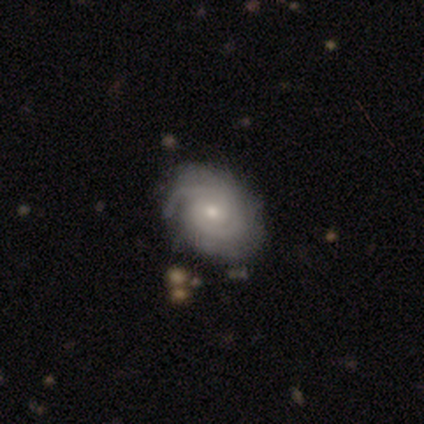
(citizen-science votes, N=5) This appears to be a featured or disk galaxy (60%) with a weak bar (67%), tight (67%) spiral arms (100%) and a small central bulge (67%). Merging: none (100%).